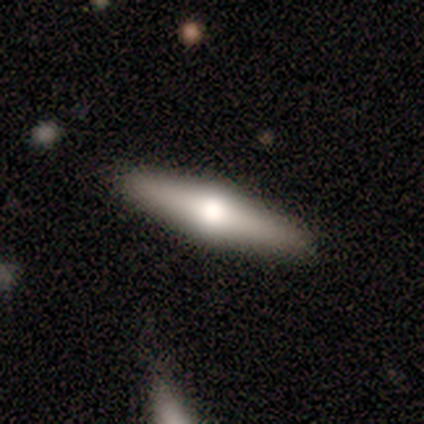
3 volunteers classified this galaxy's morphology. Smooth or featured? smooth (67%)
How rounded? cigar-shaped (100%)
Merging? none (100%)